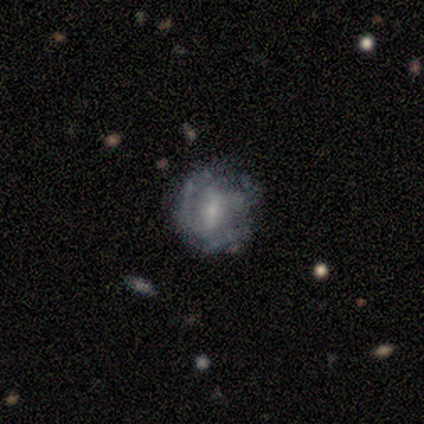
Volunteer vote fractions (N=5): Smooth or featured? 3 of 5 (60%) said featured or disk. Edge-on disk? 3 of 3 (100%) said no. Bar? 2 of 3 (67%) said weak. Spiral arms? 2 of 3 (67%) said no. Bulge size? 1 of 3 (33%, tied with small and none) said moderate. Merging? 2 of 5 (40%, tied with minor disturbance) said none.